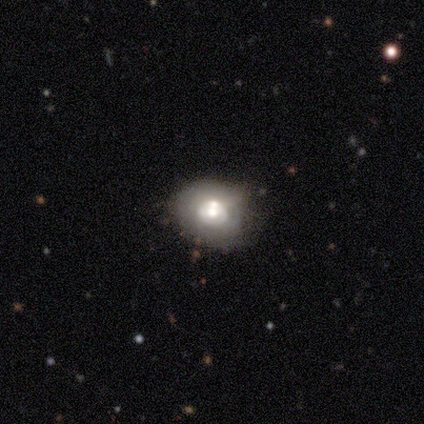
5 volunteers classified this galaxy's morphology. A featured or disk galaxy (80%) with no bar (100%), no spiral arms (100%) and a large central bulge (50%, tied with moderate). Merging: none (40%, tied with major disturbance).